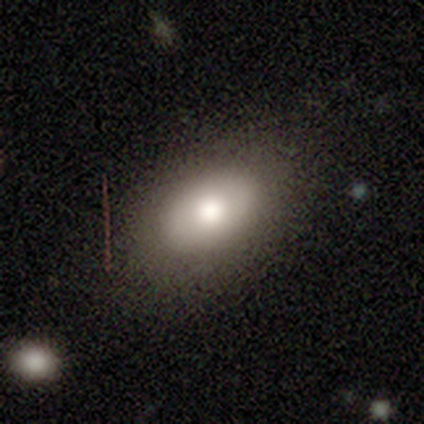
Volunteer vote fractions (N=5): This is likely a smooth galaxy (60%). How rounded: clearly in between (100%). Merging: clearly none (100%).